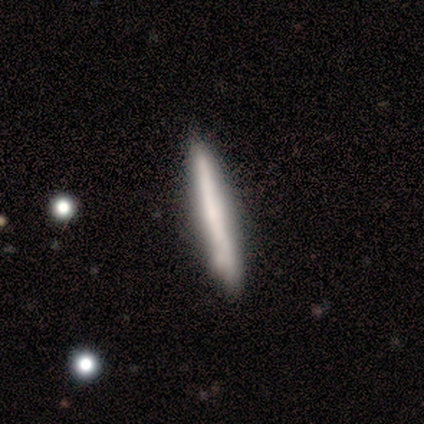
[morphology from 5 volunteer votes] Q: Smooth or featured?
A: featured or disk (80%); runner-up: smooth (20%)
Q: Edge-on disk?
A: yes (100%)
Q: Edge-on bulge?
A: none (75%); runner-up: rounded (25%)
Q: Merging?
A: none (80%); runner-up: minor disturbance (20%)